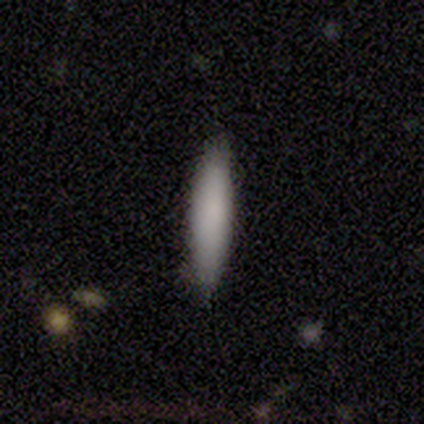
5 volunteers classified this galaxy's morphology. type=smooth (80%); roundness=cigar-shaped (75%); merging=none (75%).